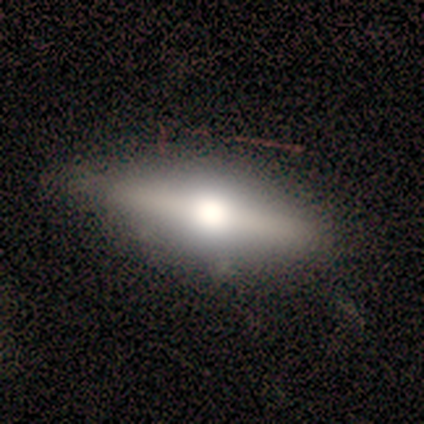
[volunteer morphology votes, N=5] A featured or disk galaxy (80%) viewed edge-on (100%) with a rounded central bulge (100%).

Vote fractions:
- Smooth or featured? featured or disk: 80% / smooth: 20% / star or artifact: 0%
- Edge-on disk? yes: 100% / no: 0%
- Edge-on bulge? rounded: 100% / boxy: 0% / none: 0%
- Merging? none: 100% / minor disturbance: 0% / major disturbance: 0% / merger: 0%